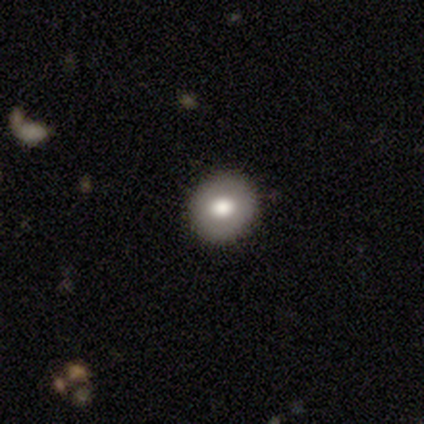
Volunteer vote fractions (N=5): Smooth or featured: smooth — 80% (featured or disk — 20%)
How rounded: round — 100%
Merging: none — 100%